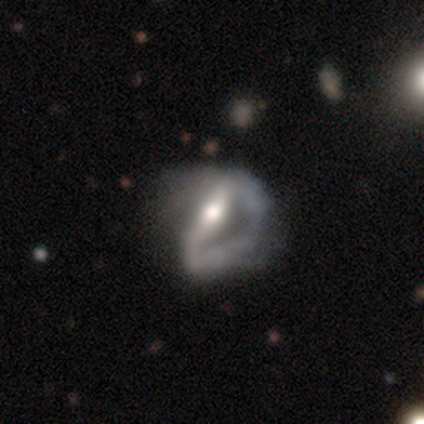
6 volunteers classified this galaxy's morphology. This is likely a featured or disk galaxy (67%). It is clearly not viewed edge-on (100%). Bar: possibly weak (50%). Spiral arm pattern: likely no (75%). Central bulge: likely moderate (75%). Merging: likely major disturbance (60%).